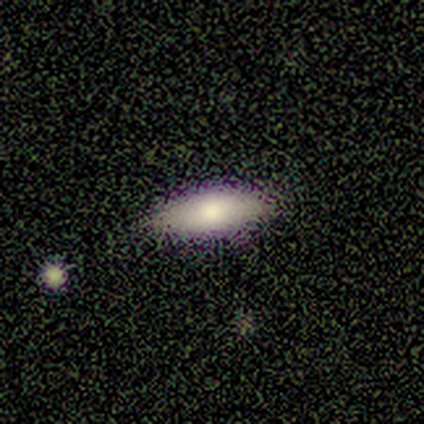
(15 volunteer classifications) This is likely a smooth galaxy (73%). How rounded: likely in between (64%). Merging: likely none (69%).